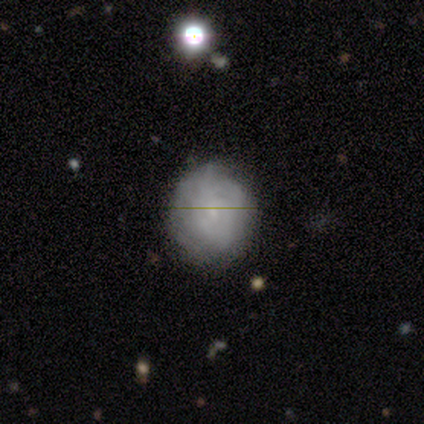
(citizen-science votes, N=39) Q: Smooth or featured?
A: smooth (46%); tied with: featured or disk (46%)
Q: How rounded?
A: round (83%); runner-up: in between (17%)
Q: Merging?
A: none (69%); runner-up: minor disturbance (19%)